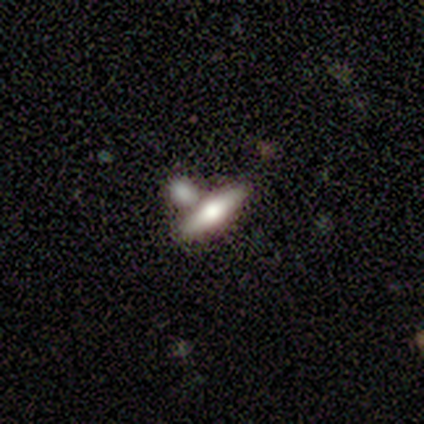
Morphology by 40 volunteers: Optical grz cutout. It shows a smooth galaxy with no disk features (48%, tied with featured or disk) that is cigar-shaped (84%). Merging: none (45%, tied with merger).